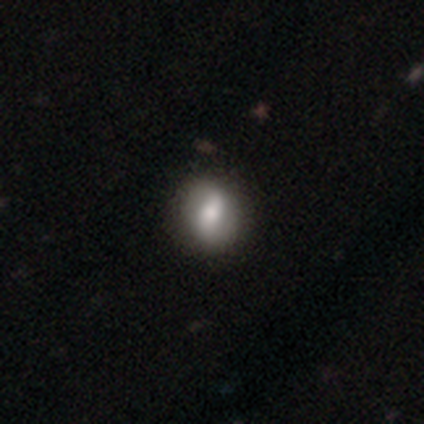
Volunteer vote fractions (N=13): smooth-or-featured: featured or disk: 54% | smooth: 46% | star or artifact: 0%
  disk-edge-on: no: 100% | yes: 0%
    bar: strong: 57% | no: 43% | weak: 0%
    has-spiral-arms: no: 71% | yes: 29%
    bulge-size: large: 57% | small: 29% | moderate: 14% | dominant: 0% | none: 0%
  merging: none: 77% | minor disturbance: 23% | major disturbance: 0% | merger: 0%